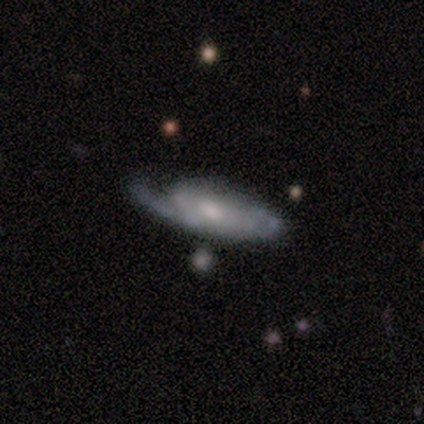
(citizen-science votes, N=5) Overall: featured or disk (80%). Edge-on disk: no (100%). Bar: no (75%). Spiral arms: yes (75%). Spiral arm count: 2 (100%). Spiral winding: tight (67%; medium 33%). Bulge size: small (50%; large 25%). Merging: none (50%; minor disturbance 25%).